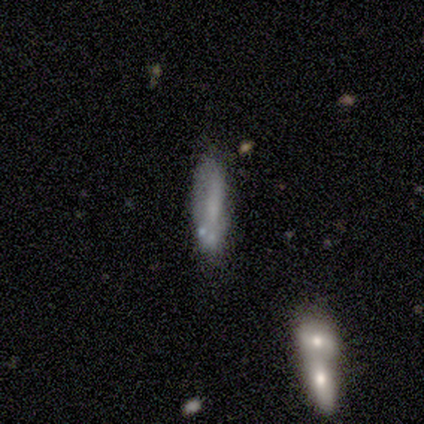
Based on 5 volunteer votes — Smooth or featured? smooth (40%, tied with star or artifact)
How rounded? cigar-shaped (100%)
Merging? minor disturbance (67%)